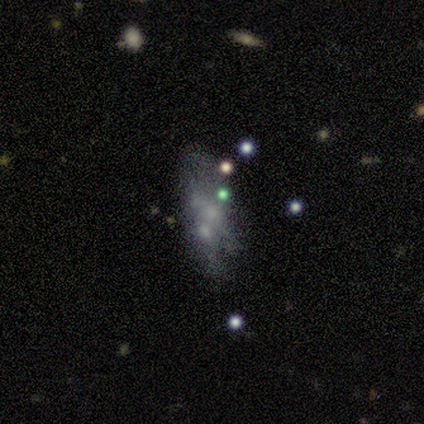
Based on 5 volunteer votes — Smooth or featured? star or artifact (60%)